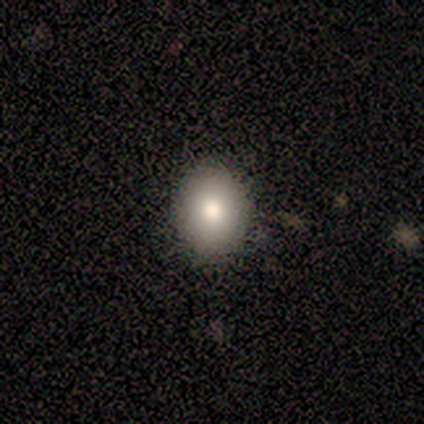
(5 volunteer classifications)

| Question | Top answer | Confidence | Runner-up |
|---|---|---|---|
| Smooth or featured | smooth | 100% | — |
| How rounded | in between | 60% | round (40%) |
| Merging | none | 80% | minor disturbance (20%) |